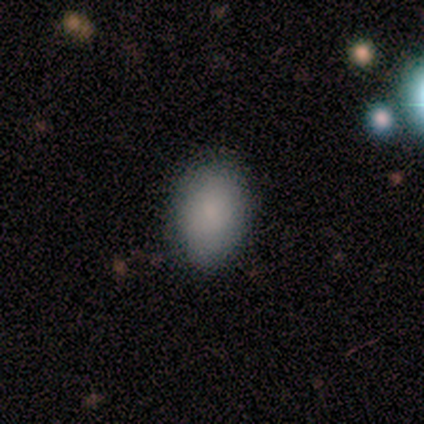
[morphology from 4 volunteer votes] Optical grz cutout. It shows a smooth galaxy with no disk features (100%) that is in between round and cigar-shaped (100%). Merging: none (100%).